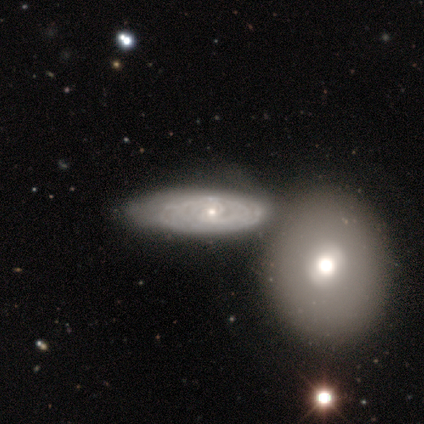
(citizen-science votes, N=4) Overall: featured or disk (75%). Edge-on disk: no (67%; yes 33%). Bar: weak (50%, tied with no). Spiral arms: no (100%). Bulge size: moderate (50%, tied with small). Merging: merger (50%; none 25%).